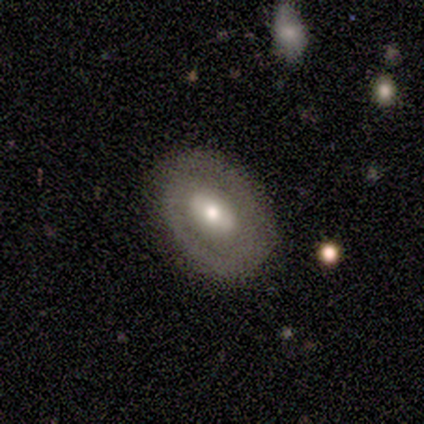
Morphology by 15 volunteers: Smooth or featured? 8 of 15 (53%) said smooth. How rounded? 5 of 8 (62%) said in between. Merging? 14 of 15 (93%) said none.